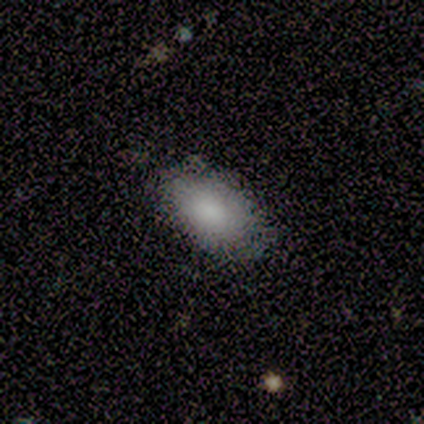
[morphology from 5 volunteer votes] type=smooth (80%); roundness=in between (100%); merging=none (75%).